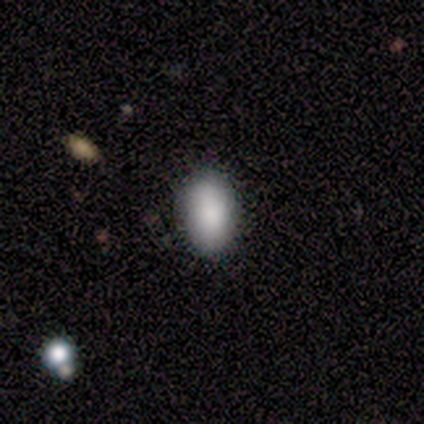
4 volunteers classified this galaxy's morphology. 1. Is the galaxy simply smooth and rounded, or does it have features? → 75% smooth, 25% star or artifact, 0% featured or disk.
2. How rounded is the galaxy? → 100% in between, 0% round, 0% cigar-shaped.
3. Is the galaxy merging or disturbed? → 100% none, 0% minor disturbance, 0% major disturbance, 0% merger.